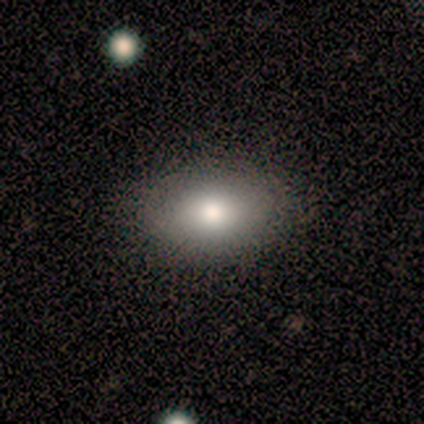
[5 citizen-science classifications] smooth-or-featured: smooth: 60% | featured or disk: 20% | star or artifact: 20%
  how-rounded: in between: 67% | round: 33% | cigar-shaped: 0%
  merging: none: 100% | minor disturbance: 0% | major disturbance: 0% | merger: 0%